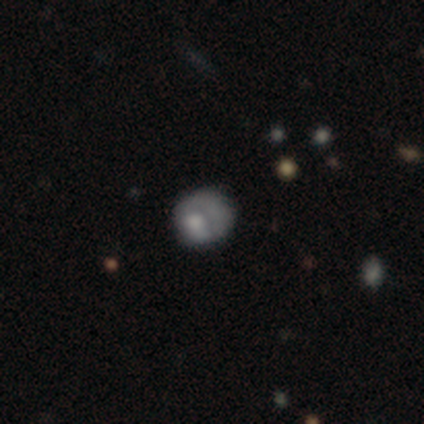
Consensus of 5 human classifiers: Volunteers were most divided on "smooth or featured" (2-way tie): smooth: 40%, featured or disk: 40%, star or artifact: 20%. More confident: how rounded — round (100%); merging — none (75%).